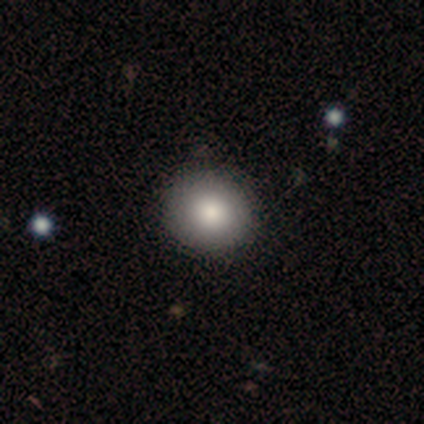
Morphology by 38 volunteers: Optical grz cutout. It shows a smooth galaxy with no disk features (87%) that is round (82%). Merging: none (68%).